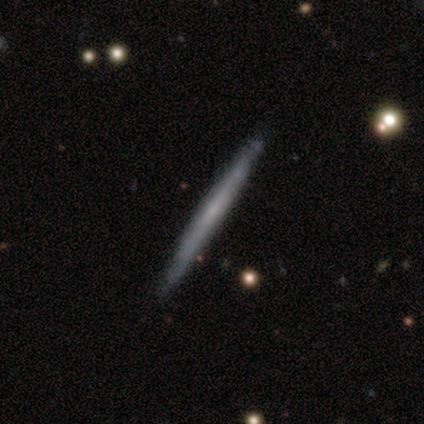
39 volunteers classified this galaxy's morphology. This appears to be a featured or disk galaxy (54%) viewed edge-on (100%) with no central bulge (71%). Merging: none (87%).